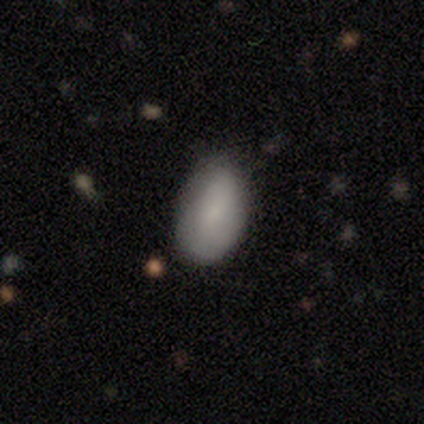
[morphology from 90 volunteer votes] type=smooth (88%); roundness=in between (95%); merging=none (67%).